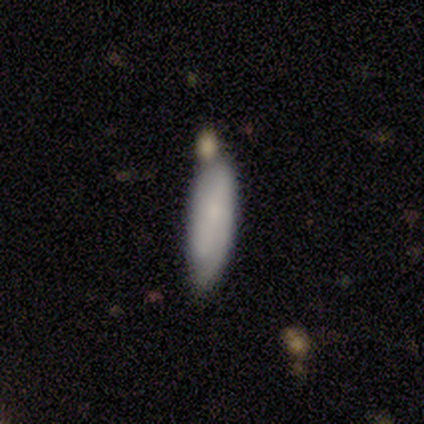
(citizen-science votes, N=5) Smooth or featured?
  - smooth: 80% *
  - star or artifact: 20%
  - featured or disk: 0%
How rounded?
  - in between: 50% * (tied)
  - cigar-shaped: 50% * (tied)
  - round: 0%
Merging?
  - minor disturbance: 75% *
  - none: 25%
  - major disturbance: 0%
  - merger: 0%